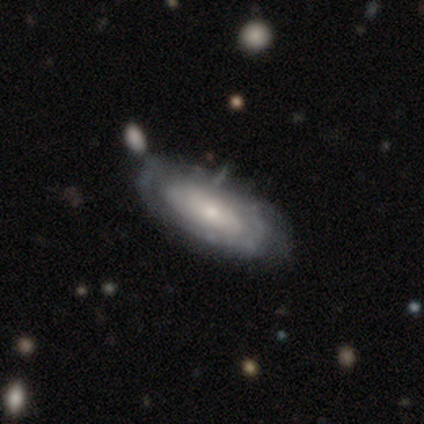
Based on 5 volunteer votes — Morphology: type=featured or disk (100%); edge-on=yes (60%); edge-on bulge=none (67%); merging=none (80%).